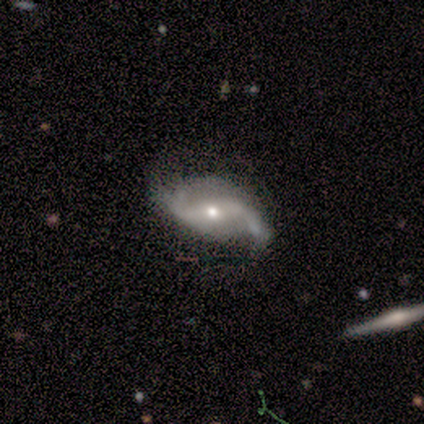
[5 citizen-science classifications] smooth_or_featured: featured or disk (p=1.00)
disk_edge_on: no (p=0.80) [alt: yes p=0.20]
bar: no (p=0.50) [alt: strong p=0.25]
has_spiral_arms: yes (p=1.00)
spiral_winding: loose (p=1.00)
spiral_arm_count: 2 (p=1.00)
bulge_size: moderate (p=0.50) [tied with: small p=0.50]
merging: none (p=0.60) [alt: minor disturbance p=0.20]